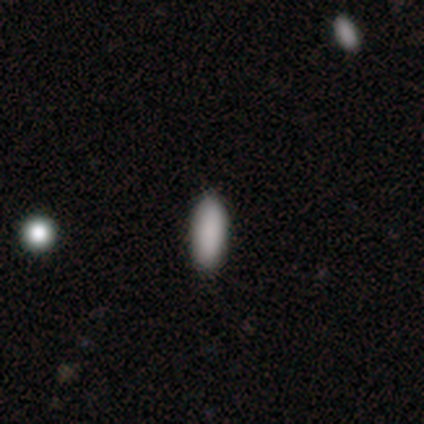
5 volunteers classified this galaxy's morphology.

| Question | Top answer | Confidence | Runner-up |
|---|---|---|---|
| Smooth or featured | smooth | 100% | — |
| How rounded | in between | 80% | cigar-shaped (20%) |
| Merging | none | 80% | minor disturbance (20%) |